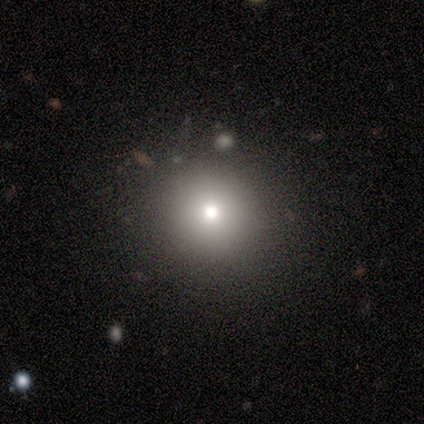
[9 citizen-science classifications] Smooth or featured?
  - smooth: 89% *
  - star or artifact: 11%
  - featured or disk: 0%
How rounded?
  - round: 100% *
  - in between: 0%
  - cigar-shaped: 0%
Merging?
  - none: 88% *
  - minor disturbance: 12%
  - major disturbance: 0%
  - merger: 0%